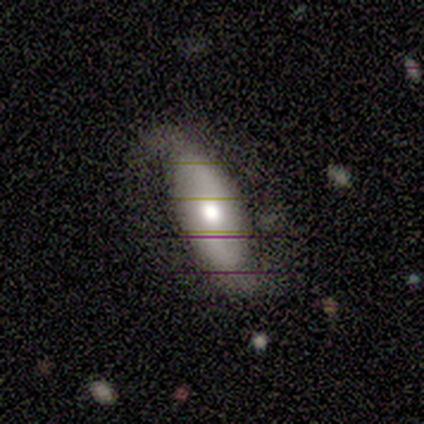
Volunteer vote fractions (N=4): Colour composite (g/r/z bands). It shows a featured or disk galaxy (75%) with no bar (67%), 2 (100%) loose (67%) spiral arms (100%) and a moderate central bulge (67%). Merging: none (75%).